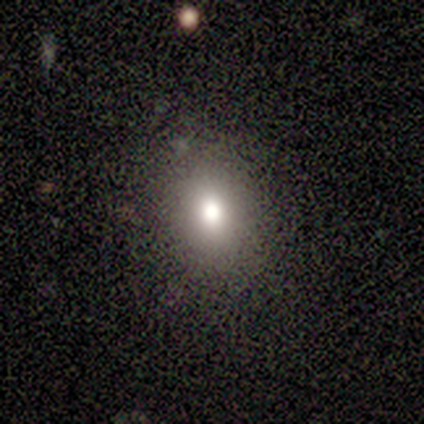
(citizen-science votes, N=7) This appears to be a smooth galaxy with no disk features (71%) that is in between round and cigar-shaped (100%). Merging: none (100%).